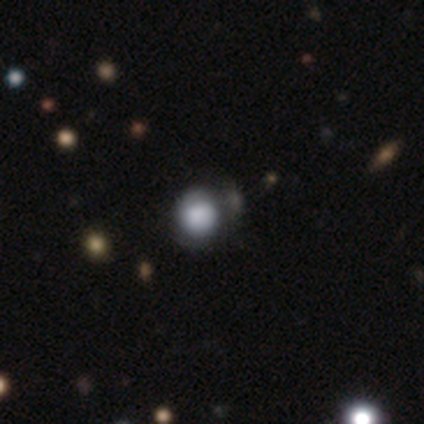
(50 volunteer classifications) Morphology: type=smooth (70%); roundness=round (91%); merging=none (65%).